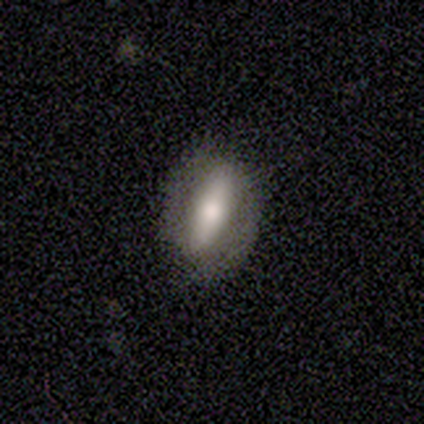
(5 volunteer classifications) smooth-or-featured: smooth: 60% | featured or disk: 40% | star or artifact: 0%
  how-rounded: in between: 67% | cigar-shaped: 33% | round: 0%
  merging: none: 40% (tied) | minor disturbance: 40% (tied) | major disturbance: 20% | merger: 0%